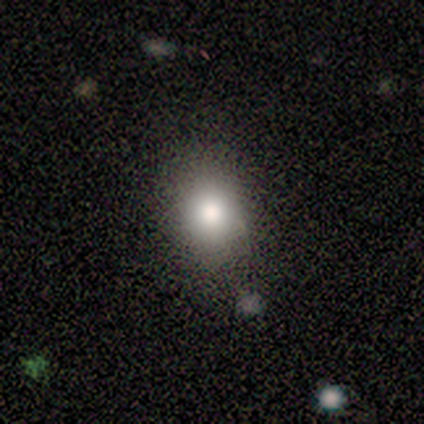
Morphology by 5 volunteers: type=smooth (60%); roundness=in between (67%); merging=none (75%).